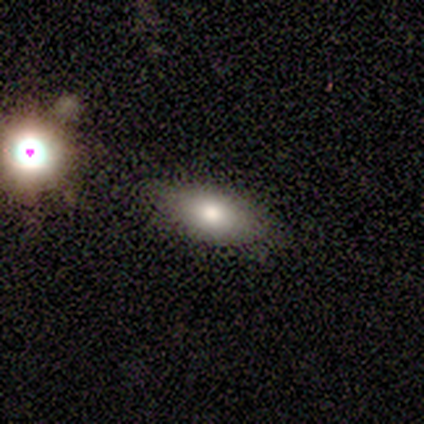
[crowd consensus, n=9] Smooth or featured: smooth — 56% (featured or disk — 22%)
How rounded: in between — 100%
Merging: none — 71% (minor disturbance — 14%)